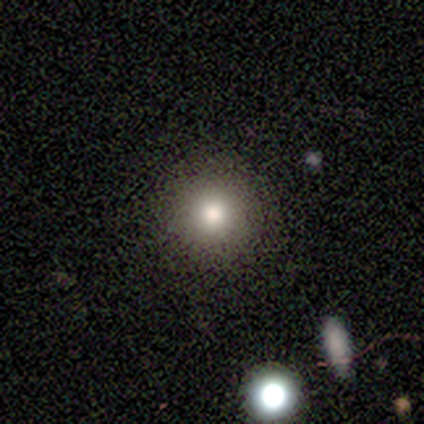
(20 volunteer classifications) Volunteers were most divided on "smooth or featured": smooth: 90%, star or artifact: 10%, featured or disk: 0%. More confident: how rounded — round (100%); merging — none (94%).